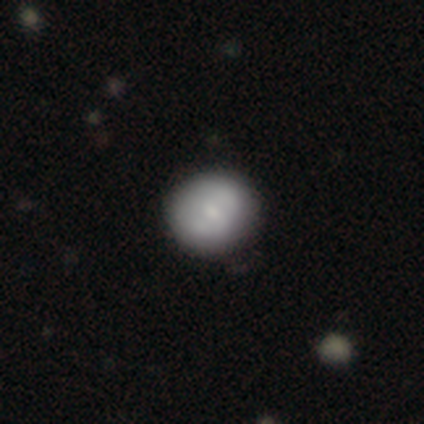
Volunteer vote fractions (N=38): Morphology: type=smooth (66%); roundness=round (88%); merging=none (66%).